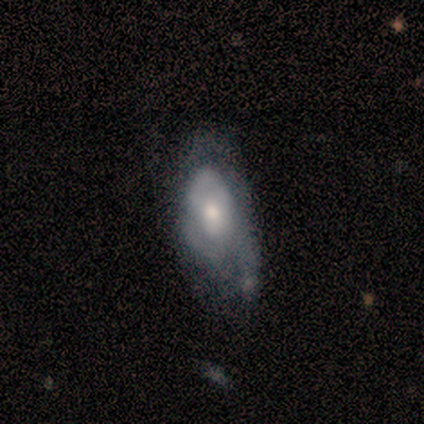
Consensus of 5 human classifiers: Q: Smooth or featured?
A: featured or disk (80%); runner-up: smooth (20%)
Q: Edge-on disk?
A: no (100%)
Q: Bar?
A: no (75%); runner-up: weak (25%)
Q: Spiral arms?
A: yes (50%); tied with: no (50%)
Q: Spiral winding?
A: tight (100%)
Q: Spiral arm count?
A: 3 (50%); tied with: can't tell (50%)
Q: Bulge size?
A: moderate (100%)
Q: Merging?
A: none (40%); tied with: major disturbance (40%)